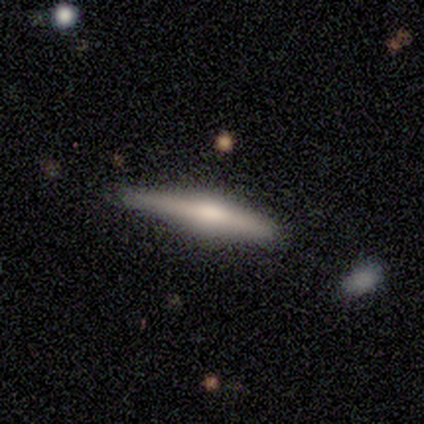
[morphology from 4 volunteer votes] Smooth or featured? smooth (75%)
How rounded? cigar-shaped (100%)
Merging? none (75%)